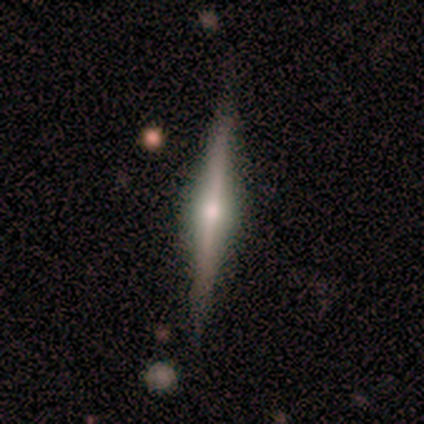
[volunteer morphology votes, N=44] smooth-or-featured: featured or disk: 82% | smooth: 14% | star or artifact: 5%
  disk-edge-on: yes: 100% | no: 0%
    edge-on-bulge: rounded: 94% | boxy: 6% | none: 0%
  merging: none: 83% | merger: 10% | minor disturbance: 7% | major disturbance: 0%